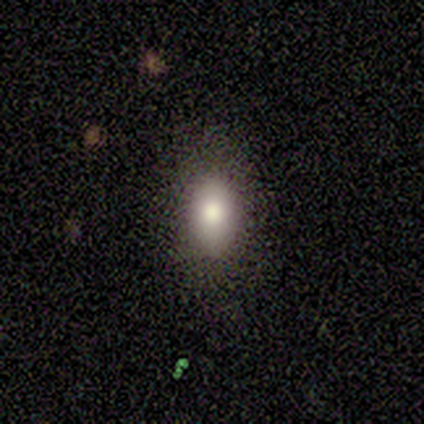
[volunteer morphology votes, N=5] smooth_or_featured: smooth (p=0.80) [alt: star or artifact p=0.20]
how_rounded: in between (p=1.00)
merging: none (p=1.00)